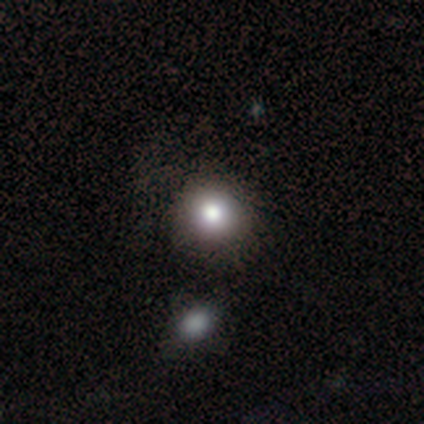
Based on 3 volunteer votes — smooth_or_featured: smooth (p=1.00)
how_rounded: round (p=1.00)
merging: none (p=0.67) [alt: major disturbance p=0.33]